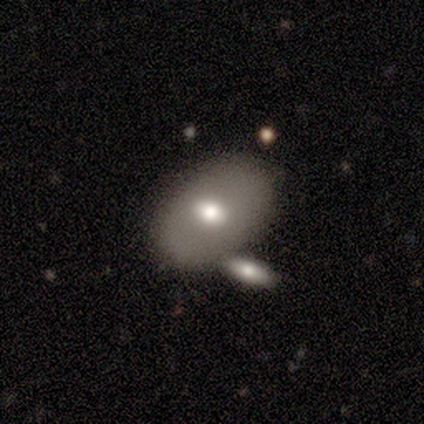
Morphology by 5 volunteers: Q: Smooth or featured?
A: featured or disk (60%); runner-up: smooth (40%)
Q: Edge-on disk?
A: no (100%)
Q: Bar?
A: no (67%); runner-up: strong (33%)
Q: Spiral arms?
A: no (100%)
Q: Bulge size?
A: moderate (67%); runner-up: large (33%)
Q: Merging?
A: none (80%); runner-up: minor disturbance (20%)